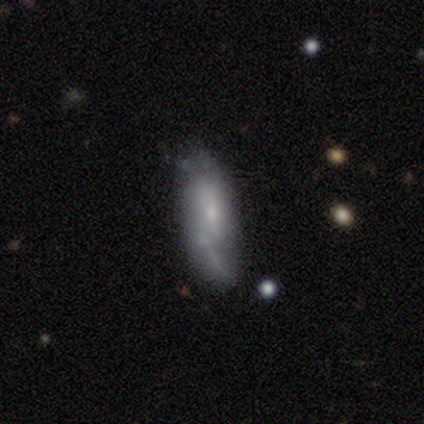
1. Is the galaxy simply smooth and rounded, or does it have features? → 54% featured or disk, 39% smooth, 7% star or artifact.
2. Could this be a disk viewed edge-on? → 91% no, 9% yes.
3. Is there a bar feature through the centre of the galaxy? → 80% no, 17% weak, 2% strong.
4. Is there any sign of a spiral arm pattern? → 63% yes, 37% no.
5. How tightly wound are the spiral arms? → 54% loose, 31% medium, 15% tight.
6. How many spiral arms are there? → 42% 2, 31% can't tell, 27% 1, 0% 3, 0% 4, 0% more than 4.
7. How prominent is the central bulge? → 63% small, 22% moderate, 15% none, 0% dominant, 0% large.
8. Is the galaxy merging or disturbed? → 59% none, 23% minor disturbance, 12% major disturbance, 6% merger.